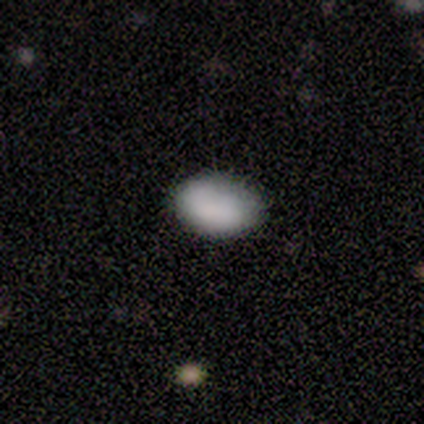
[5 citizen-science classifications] Smooth or featured?
  - smooth: 60% *
  - star or artifact: 40%
  - featured or disk: 0%
How rounded?
  - in between: 67% *
  - round: 33%
  - cigar-shaped: 0%
Merging?
  - none: 100% *
  - minor disturbance: 0%
  - major disturbance: 0%
  - merger: 0%